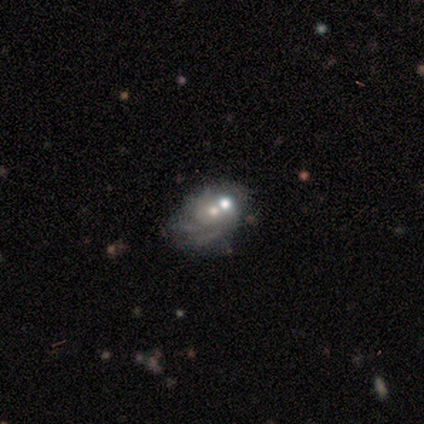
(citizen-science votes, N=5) A featured or disk galaxy (80%) with no bar (100%), medium (100%) spiral arms (100%) and a moderate central bulge (50%, tied with small). Merging: minor disturbance (40%).